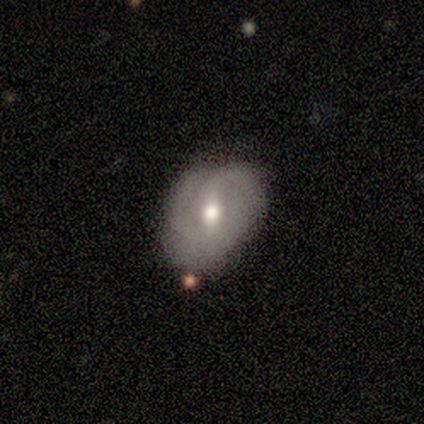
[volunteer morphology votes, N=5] featured or disk 100%, smooth 0%, star or artifact 0%. Down the decision tree: edge-on disk — no (100%); bar — weak (40%, tied with no); spiral arms — yes (100%); spiral arm count — 1 (40%, tied with can't tell); spiral winding — tight (40%, tied with loose); bulge size — moderate (100%); merging — none (100%).